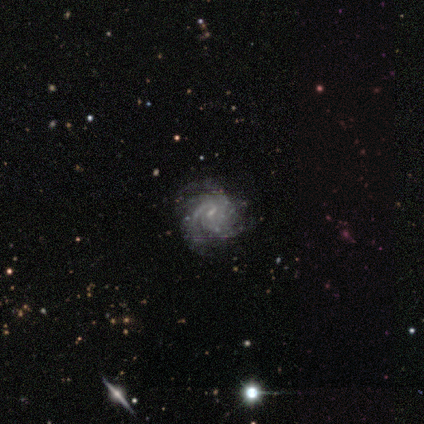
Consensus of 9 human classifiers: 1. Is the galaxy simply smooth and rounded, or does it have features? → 89% featured or disk, 11% star or artifact, 0% smooth.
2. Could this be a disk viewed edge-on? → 100% no, 0% yes.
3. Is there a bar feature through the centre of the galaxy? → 62% weak, 25% no, 12% strong.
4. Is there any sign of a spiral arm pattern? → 88% yes, 12% no.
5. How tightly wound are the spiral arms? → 57% tight, 29% medium, 14% loose.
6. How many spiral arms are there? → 43% 3, 29% 2, 29% can't tell, 0% 1, 0% 4, 0% more than 4.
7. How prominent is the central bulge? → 75% small, 12% moderate, 12% none, 0% dominant, 0% large.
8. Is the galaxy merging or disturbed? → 75% none, 25% minor disturbance, 0% major disturbance, 0% merger.